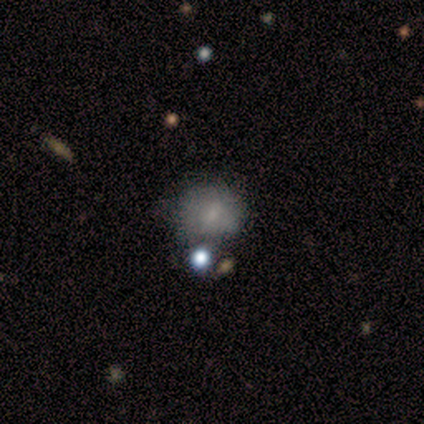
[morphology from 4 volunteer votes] This is likely a smooth galaxy (75%). How rounded: likely round (67%). Merging: possibly none (50%, tied with minor disturbance).